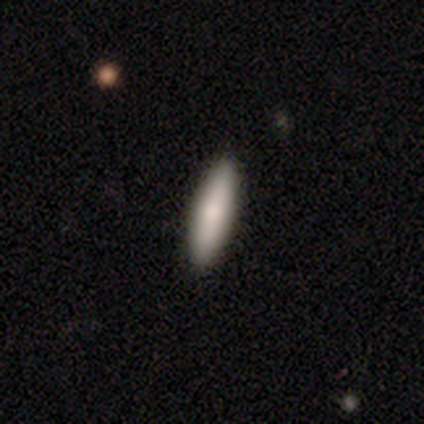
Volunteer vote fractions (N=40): Smooth or featured?
  - smooth: 70% *
  - featured or disk: 25%
  - star or artifact: 5%
How rounded?
  - cigar-shaped: 71% *
  - in between: 29%
  - round: 0%
Merging?
  - none: 71% *
  - minor disturbance: 3%
  - major disturbance: 0%
  - merger: 0%